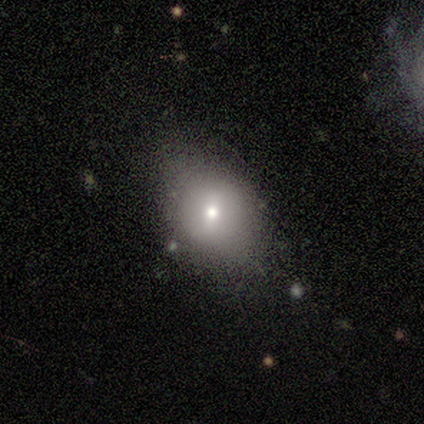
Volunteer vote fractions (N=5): This appears to be a smooth galaxy with no disk features (60%) that is in between round and cigar-shaped (67%). Merging: none (100%).